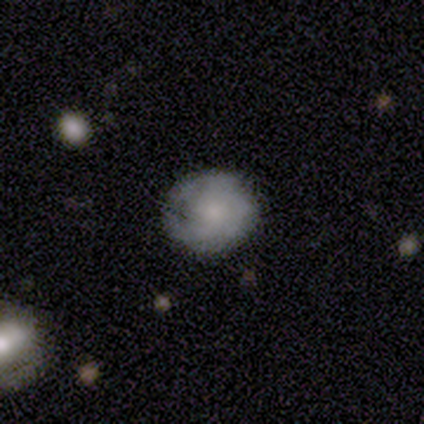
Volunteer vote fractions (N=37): Smooth or featured: smooth — 73% (featured or disk — 22%)
How rounded: round — 96% (in between — 4%)
Merging: none — 71% (minor disturbance — 29%)